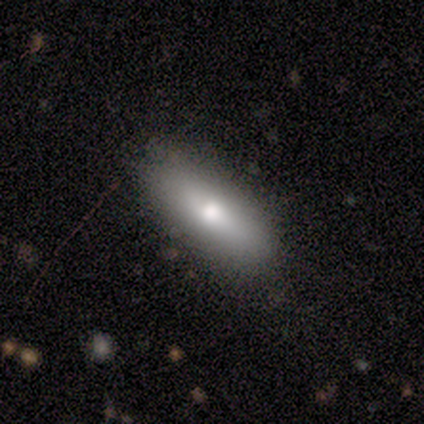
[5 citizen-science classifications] smooth 80%, featured or disk 20%, star or artifact 0%. Down the decision tree: how rounded — cigar-shaped (75%); merging — none (60%).